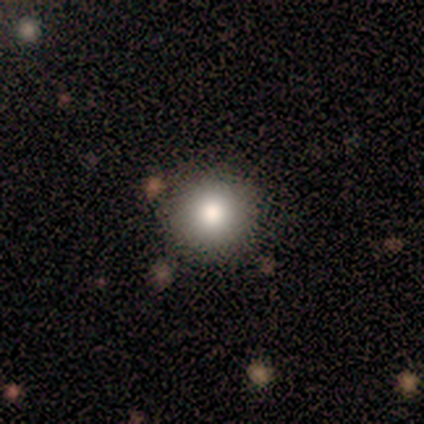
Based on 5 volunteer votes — smooth_or_featured: smooth (p=0.40) [tied with: star or artifact p=0.40]
how_rounded: round (p=1.00)
merging: none (p=1.00)